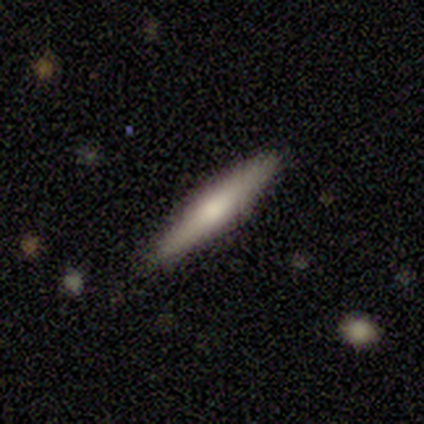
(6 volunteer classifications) A smooth galaxy with no disk features (67%) that is cigar-shaped (100%).

Vote fractions:
- Smooth or featured? smooth: 67% / featured or disk: 33% / star or artifact: 0%
- How rounded? cigar-shaped: 100% / round: 0% / in between: 0%
- Merging? none: 100% / minor disturbance: 0% / major disturbance: 0% / merger: 0%